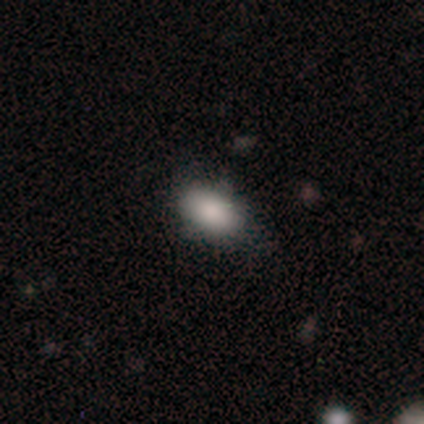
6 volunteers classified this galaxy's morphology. Overall: smooth (83%). How rounded: in between (100%). Merging: none (80%).